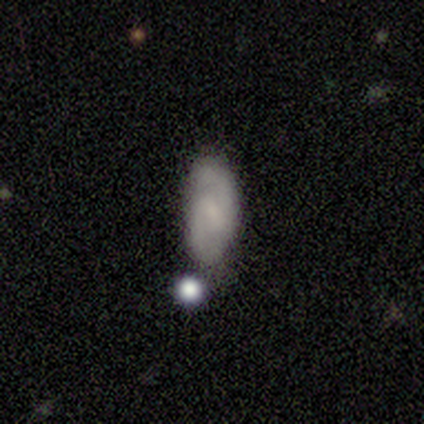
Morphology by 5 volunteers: smooth_or_featured: featured or disk (p=1.00)
disk_edge_on: no (p=1.00)
bar: no (p=0.60) [alt: weak p=0.40]
has_spiral_arms: yes (p=0.80) [alt: no p=0.20]
spiral_winding: tight (p=0.75) [alt: medium p=0.25]
spiral_arm_count: 2 (p=0.75) [alt: can't tell p=0.25]
bulge_size: small (p=0.60) [alt: none p=0.40]
merging: none (p=0.80) [alt: major disturbance p=0.20]